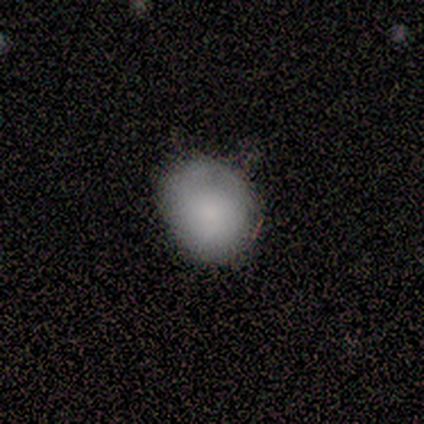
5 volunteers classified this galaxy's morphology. This appears to be a smooth galaxy with no disk features (100%) that is in between round and cigar-shaped (80%). Merging: none (80%).